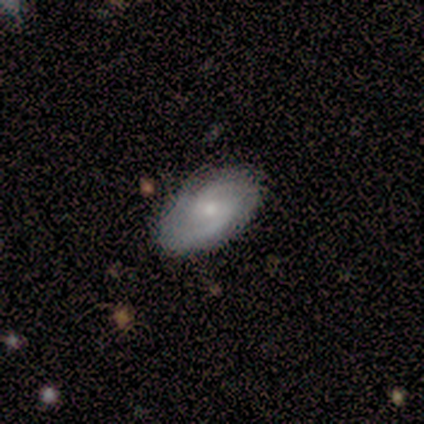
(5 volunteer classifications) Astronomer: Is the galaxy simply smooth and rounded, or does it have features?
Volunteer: featured or disk — 100%.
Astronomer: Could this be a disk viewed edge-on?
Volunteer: no — 100%.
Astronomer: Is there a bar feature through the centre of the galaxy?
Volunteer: weak — 80%.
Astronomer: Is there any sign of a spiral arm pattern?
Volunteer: yes — 100%.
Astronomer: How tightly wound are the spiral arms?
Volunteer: medium — 80%.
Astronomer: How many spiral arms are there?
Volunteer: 2 — 100%.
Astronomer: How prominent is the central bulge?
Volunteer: small — 60% (runner-up: moderate, 40%).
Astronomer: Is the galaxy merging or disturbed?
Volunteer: none — 80%.